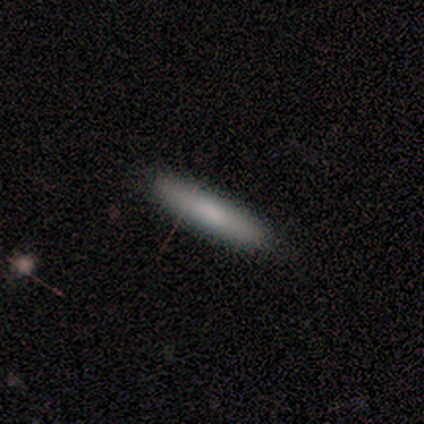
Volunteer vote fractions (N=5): smooth-or-featured: smooth: 60% | featured or disk: 40% | star or artifact: 0%
  how-rounded: cigar-shaped: 100% | round: 0% | in between: 0%
  merging: none: 100% | minor disturbance: 0% | major disturbance: 0% | merger: 0%